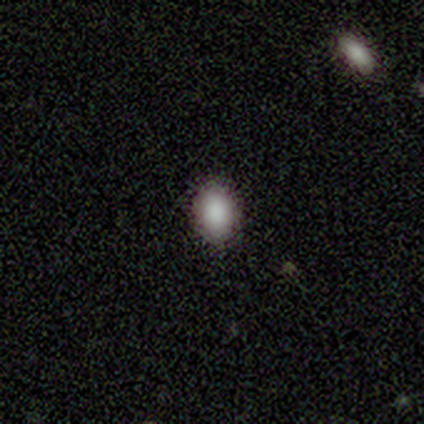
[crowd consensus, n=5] Volunteers were most divided on "how rounded": in between: 60%, round: 40%, cigar-shaped: 0%. More confident: smooth or featured — smooth (100%); merging — none (100%).